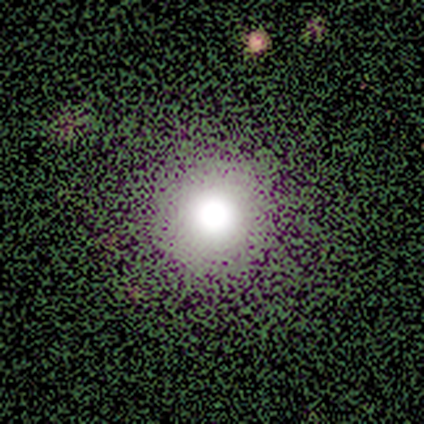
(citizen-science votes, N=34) smooth 71%, star or artifact 29%, featured or disk 0%. Down the decision tree: how rounded — round (100%); merging — none (96%).